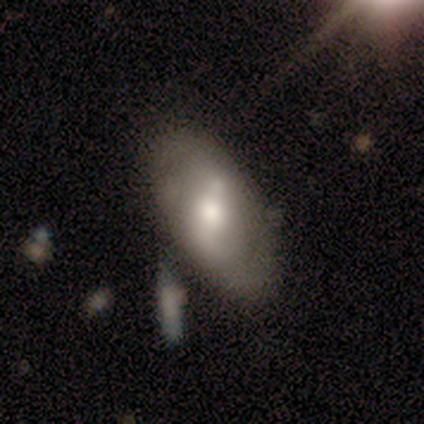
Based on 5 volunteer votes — Morphology: type=featured or disk (80%); edge-on=no (100%); bar=no (50%); spiral arms=yes (75%); winding=tight (33%, tied with medium and loose); arm count=2 (67%); bulge=moderate (75%); merging=none (100%).